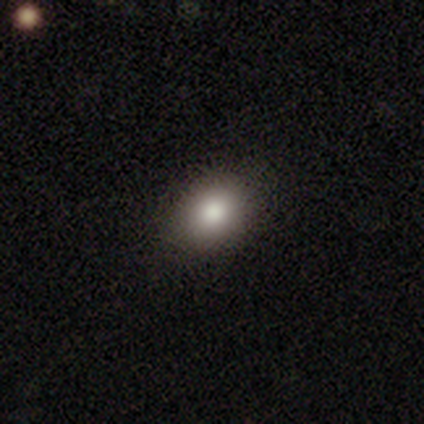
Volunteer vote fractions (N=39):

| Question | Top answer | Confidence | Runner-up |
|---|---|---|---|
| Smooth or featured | smooth | 79% | featured or disk (13%) |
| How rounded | in between | 58% | round (42%) |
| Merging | none | 86% | minor disturbance (8%) |